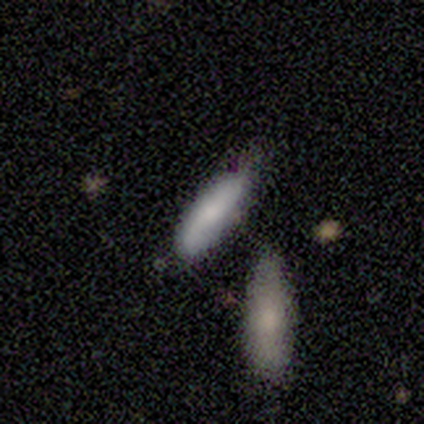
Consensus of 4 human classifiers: Smooth or featured: smooth — 50% (tied with featured or disk — 50%)
How rounded: in between — 100%
Merging: none — 50% (minor disturbance — 25%)